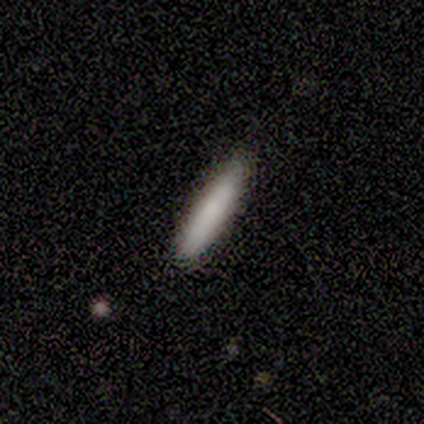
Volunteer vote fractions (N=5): Overall: smooth (100%). How rounded: cigar-shaped (100%). Merging: none (100%).